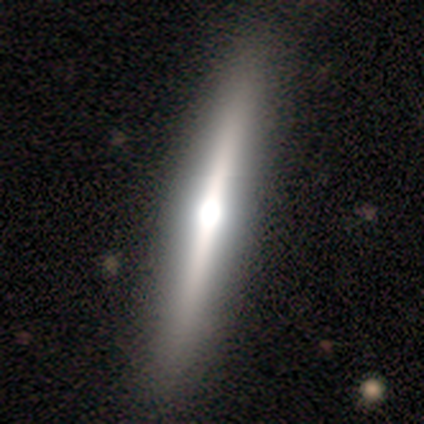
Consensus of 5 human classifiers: Smooth or featured: featured or disk — 60% (smooth — 20%)
Edge-on disk: yes — 100%
Edge-on bulge: rounded — 100%
Merging: none — 75% (minor disturbance — 25%)